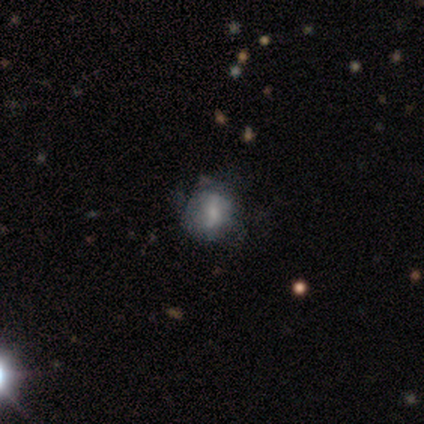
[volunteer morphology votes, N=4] This is likely a smooth galaxy (75%). How rounded: likely round (67%). Merging: clearly none (100%).